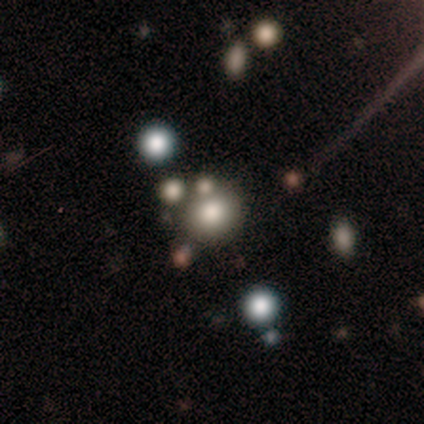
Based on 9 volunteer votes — Volunteers were most divided on "merging": none: 75%, minor disturbance: 12%, merger: 12%, major disturbance: 0%. More confident: how rounded — round (100%); smooth or featured — smooth (89%).